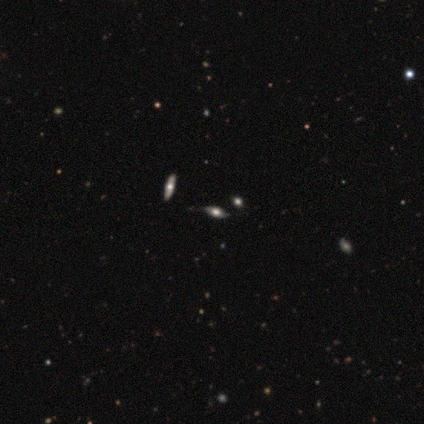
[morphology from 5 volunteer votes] A featured or disk galaxy (80%) viewed edge-on (75%) with a rounded central bulge (100%).

Vote fractions:
- Smooth or featured? featured or disk: 80% / smooth: 20% / star or artifact: 0%
- Edge-on disk? yes: 75% / no: 25%
- Edge-on bulge? rounded: 100% / boxy: 0% / none: 0%
- Merging? none: 100% / minor disturbance: 0% / major disturbance: 0% / merger: 0%